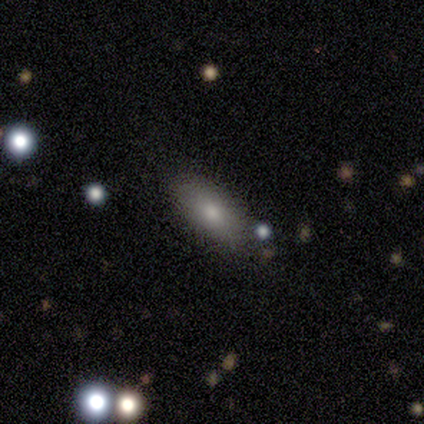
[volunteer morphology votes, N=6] Smooth or featured: smooth — 83% (featured or disk — 17%)
How rounded: in between — 80% (round — 20%)
Merging: none — 33% (tied with minor disturbance — 33%; merger — 33%)